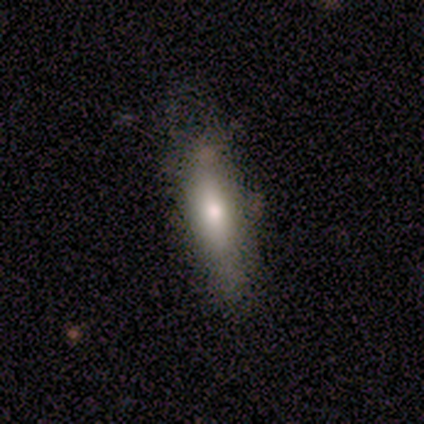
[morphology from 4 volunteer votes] Smooth or featured? smooth (50%)
How rounded? in between (100%)
Merging? none (67%)